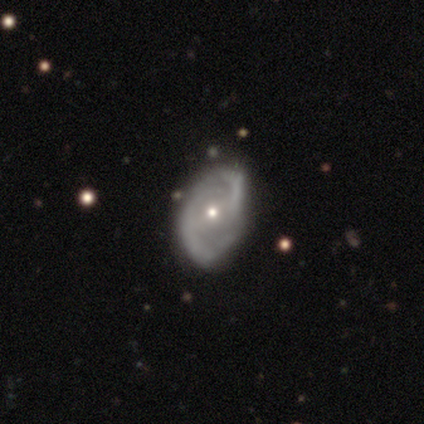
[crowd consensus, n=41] Smooth or featured?
  - featured or disk: 88% *
  - smooth: 10%
  - star or artifact: 2%
Edge-on disk?
  - no: 97% *
  - yes: 3%
Bar?
  - no: 46% *
  - weak: 34%
  - strong: 20%
Spiral arms?
  - yes: 86% *
  - no: 14%
Spiral winding?
  - medium: 57% *
  - loose: 30%
  - tight: 13%
Spiral arm count?
  - 2: 93% *
  - 1: 3%
  - can't tell: 3%
  - 3: 0%
  - 4: 0%
  - more than 4: 0%
Bulge size?
  - small: 54% *
  - moderate: 46%
  - dominant: 0%
  - large: 0%
  - none: 0%
Merging?
  - none: 42% *
  - minor disturbance: 25%
  - merger: 8%
  - major disturbance: 2%